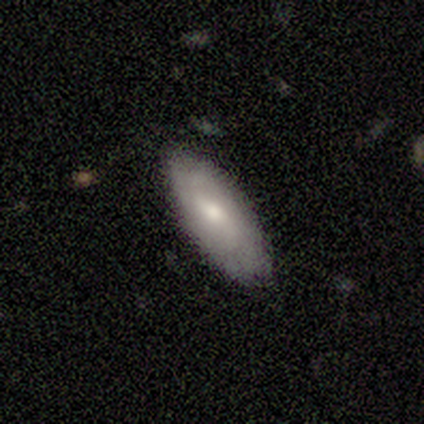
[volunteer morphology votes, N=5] smooth_or_featured: featured or disk (p=0.60) [alt: smooth p=0.40]
disk_edge_on: no (p=1.00)
bar: weak (p=1.00)
has_spiral_arms: yes (p=1.00)
spiral_winding: tight (p=0.33) [tied with: medium p=0.33, loose p=0.33]
spiral_arm_count: can't tell (p=0.67) [alt: 2 p=0.33]
bulge_size: moderate (p=0.67) [alt: small p=0.33]
merging: none (p=0.80) [alt: minor disturbance p=0.20]